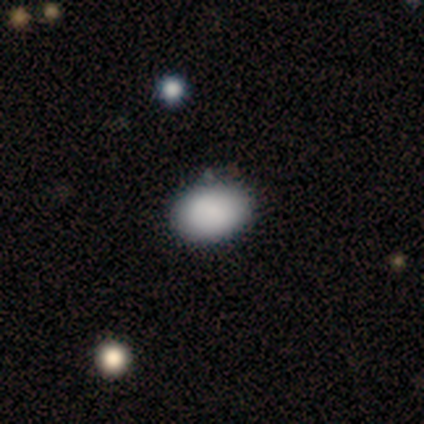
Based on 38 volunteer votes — Smooth or featured?
  - smooth: 95% *
  - featured or disk: 3%
  - star or artifact: 3%
How rounded?
  - in between: 86% *
  - round: 14%
  - cigar-shaped: 0%
Merging?
  - none: 81% *
  - minor disturbance: 16%
  - merger: 3%
  - major disturbance: 0%